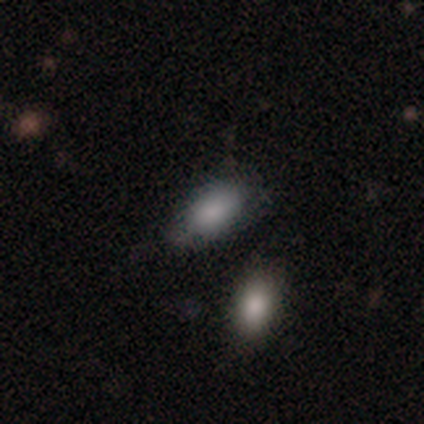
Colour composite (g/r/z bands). It shows a smooth galaxy with no disk features (100%) that is in between round and cigar-shaped (100%). Merging: none (60%).